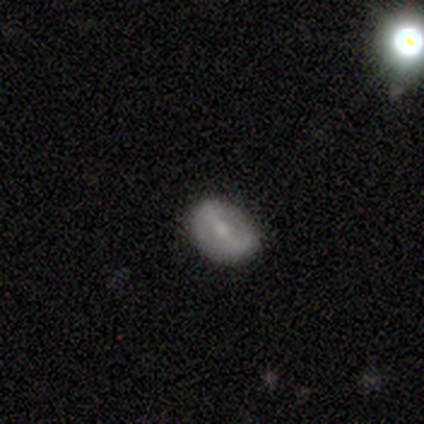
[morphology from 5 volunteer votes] Overall: smooth (80%). How rounded: round (75%). Merging: none (50%; minor disturbance 25%).